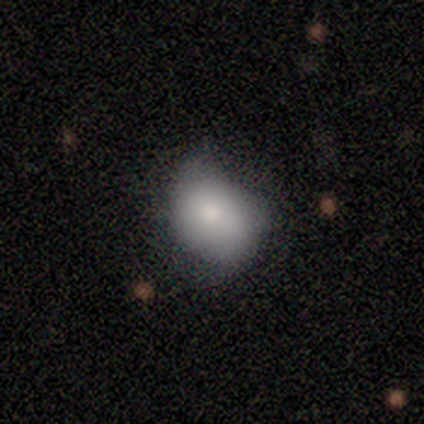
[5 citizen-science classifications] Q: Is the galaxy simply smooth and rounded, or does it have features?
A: smooth — 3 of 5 (60%).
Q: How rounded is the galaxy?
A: in between — 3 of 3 (100%).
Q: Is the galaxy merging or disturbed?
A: minor disturbance — 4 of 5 (80%).